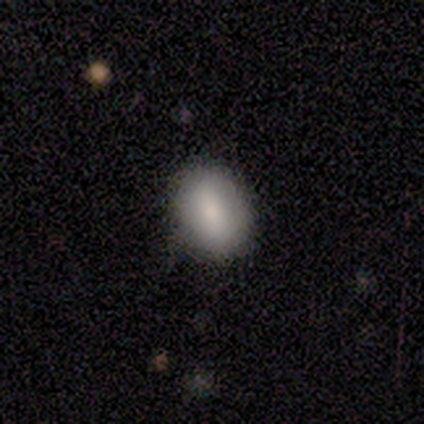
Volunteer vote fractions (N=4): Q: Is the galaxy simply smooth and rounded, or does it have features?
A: smooth — 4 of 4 (100%).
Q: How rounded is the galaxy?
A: round — 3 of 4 (75%).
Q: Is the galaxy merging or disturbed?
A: none — 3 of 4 (75%).